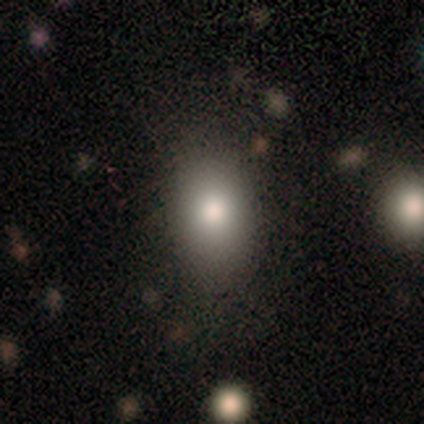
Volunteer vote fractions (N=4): A smooth galaxy with no disk features (50%) that is round (50%, tied with in between).

Vote fractions:
- Smooth or featured? smooth: 50% / featured or disk: 25% / star or artifact: 25%
- How rounded? round: 50% (tied) / in between: 50% (tied) / cigar-shaped: 0%
- Merging? none: 67% / minor disturbance: 33% / major disturbance: 0% / merger: 0%